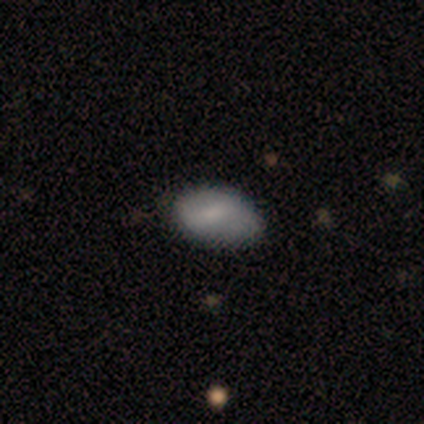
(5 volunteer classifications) Smooth or featured? smooth (60%)
How rounded? in between (67%)
Merging? none (75%)